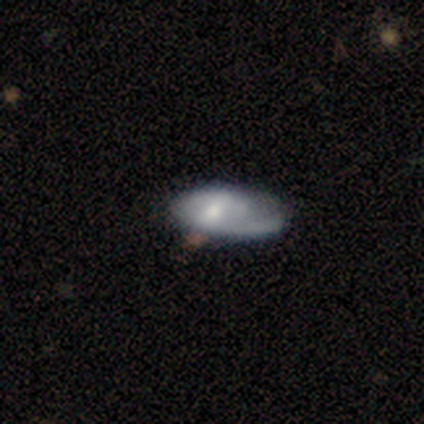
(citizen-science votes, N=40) Overall: featured or disk (65%; smooth 35%). Edge-on disk: no (96%). Bar: no (48%; weak 36%). Spiral arms: yes (80%). Spiral arm count: 1 (70%). Spiral winding: medium (35%, tied with loose). Bulge size: moderate (64%). Merging: major disturbance (30%; none 25%).